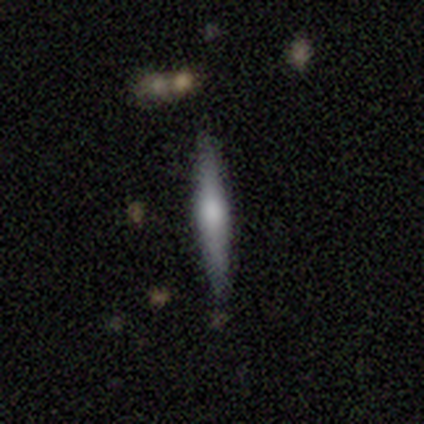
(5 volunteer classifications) A featured or disk galaxy (80%) viewed edge-on (100%) with a rounded central bulge (100%). Merging: none (100%).